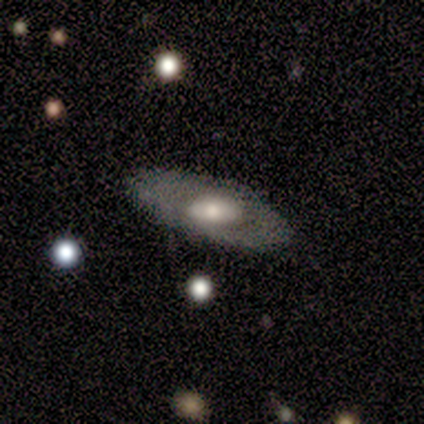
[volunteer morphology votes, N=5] featured or disk 60%, smooth 40%, star or artifact 0%. Down the decision tree: edge-on disk — yes (67%); edge-on bulge — rounded (100%); merging — none (80%).